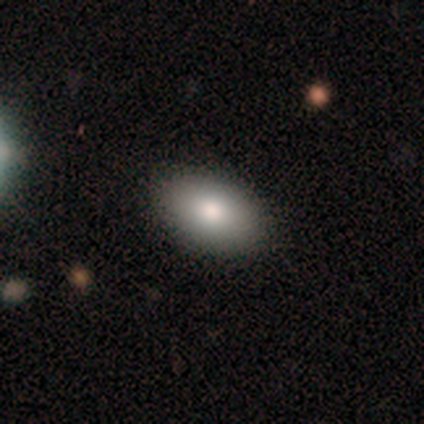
A smooth galaxy with no disk features (100%) that is in between round and cigar-shaped (100%).

Vote fractions:
- Smooth or featured? smooth: 100% / featured or disk: 0% / star or artifact: 0%
- How rounded? in between: 100% / round: 0% / cigar-shaped: 0%
- Merging? none: 80% / minor disturbance: 20% / major disturbance: 0% / merger: 0%